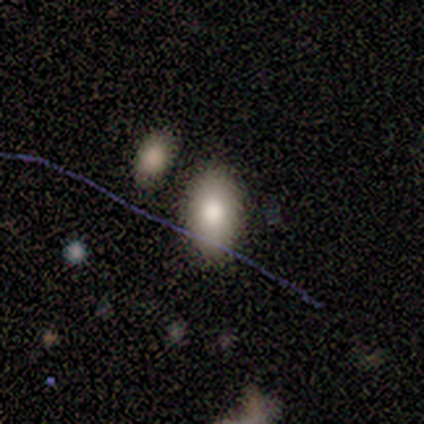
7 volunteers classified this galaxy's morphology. smooth 71%, featured or disk 29%, star or artifact 0%. Down the decision tree: how rounded — in between (100%); merging — none (86%).